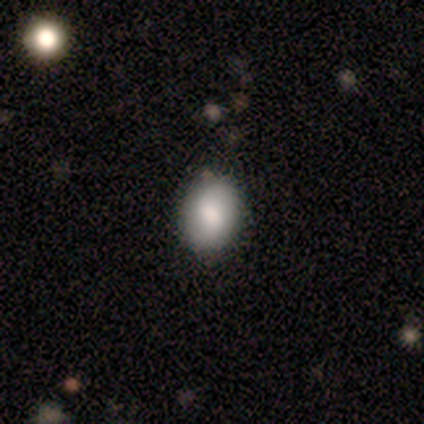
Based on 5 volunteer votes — A smooth galaxy with no disk features (80%) that is round (50%, tied with in between).

Vote fractions:
- Smooth or featured? smooth: 80% / featured or disk: 20% / star or artifact: 0%
- How rounded? round: 50% (tied) / in between: 50% (tied) / cigar-shaped: 0%
- Merging? none: 60% / minor disturbance: 40% / major disturbance: 0% / merger: 0%